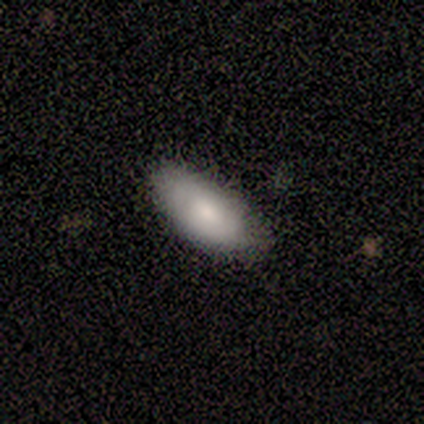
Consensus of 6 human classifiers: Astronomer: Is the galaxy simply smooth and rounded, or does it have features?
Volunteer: smooth — 83%.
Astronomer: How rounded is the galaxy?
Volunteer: in between — 100%.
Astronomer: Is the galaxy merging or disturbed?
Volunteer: none — 67%.